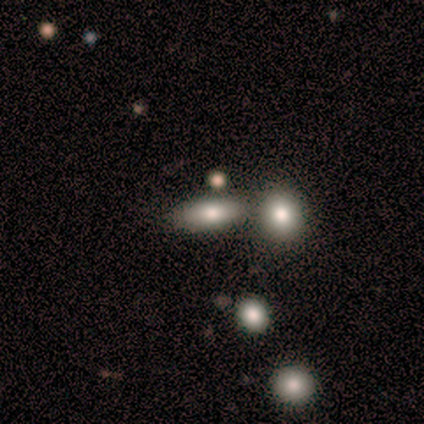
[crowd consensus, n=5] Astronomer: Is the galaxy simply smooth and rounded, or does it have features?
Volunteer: smooth — 60% (runner-up: star or artifact, 40%).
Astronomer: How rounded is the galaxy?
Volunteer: in between — 67%.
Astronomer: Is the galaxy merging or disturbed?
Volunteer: merger — 67%.